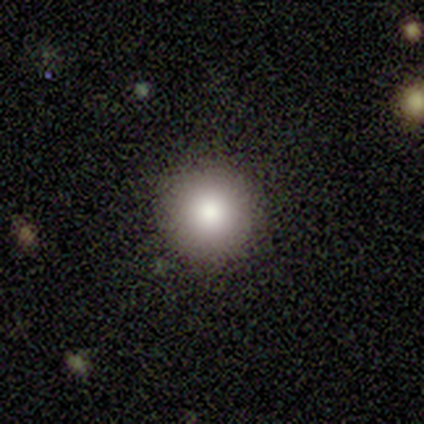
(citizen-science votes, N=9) This is likely a smooth galaxy (78%). How rounded: clearly round (100%). Merging: clearly none (100%).